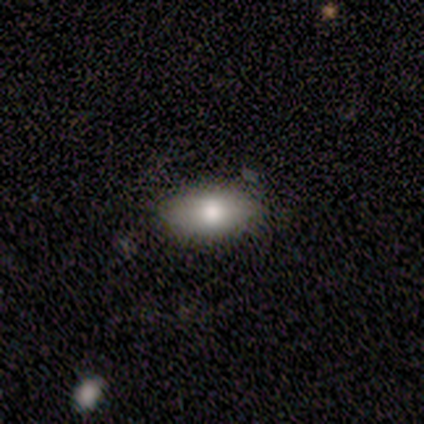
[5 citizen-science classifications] smooth-or-featured: smooth: 100% | featured or disk: 0% | star or artifact: 0%
  how-rounded: in between: 80% | cigar-shaped: 20% | round: 0%
  merging: none: 80% | minor disturbance: 20% | major disturbance: 0% | merger: 0%